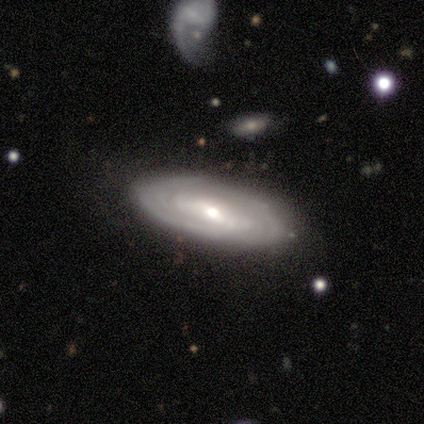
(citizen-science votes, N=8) Overall: featured or disk (88%). Edge-on disk: no (57%; yes 43%). Bar: weak (50%, tied with no). Spiral arms: yes (75%). Spiral arm count: can't tell (67%; 2 33%). Spiral winding: tight (67%; medium 33%). Bulge size: moderate (75%). Merging: none (88%).